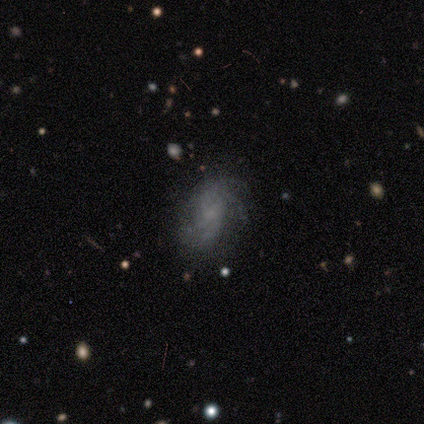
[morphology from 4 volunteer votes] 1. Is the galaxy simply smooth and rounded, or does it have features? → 75% featured or disk, 25% smooth, 0% star or artifact.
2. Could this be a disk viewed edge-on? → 100% no, 0% yes.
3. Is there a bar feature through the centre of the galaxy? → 67% no, 33% weak, 0% strong.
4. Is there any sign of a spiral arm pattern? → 100% yes, 0% no.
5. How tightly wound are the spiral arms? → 67% tight, 33% medium, 0% loose.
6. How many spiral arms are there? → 67% can't tell, 33% 2, 0% 1, 0% 3, 0% 4, 0% more than 4.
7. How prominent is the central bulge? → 67% small, 33% none, 0% dominant, 0% large, 0% moderate.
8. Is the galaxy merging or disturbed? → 75% none, 25% major disturbance, 0% minor disturbance, 0% merger.